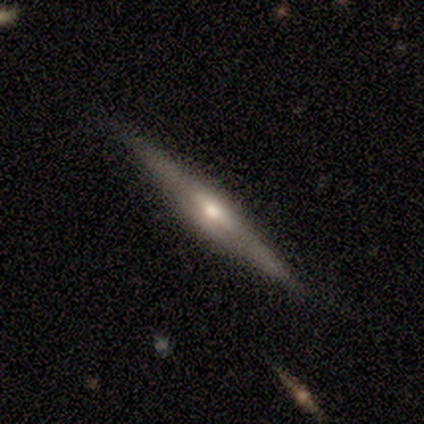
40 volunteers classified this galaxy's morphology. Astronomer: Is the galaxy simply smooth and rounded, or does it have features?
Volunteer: featured or disk — 88%.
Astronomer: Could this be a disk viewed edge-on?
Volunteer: yes — 94%.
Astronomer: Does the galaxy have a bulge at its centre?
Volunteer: rounded — 94%.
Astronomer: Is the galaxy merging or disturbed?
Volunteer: none — 89%.